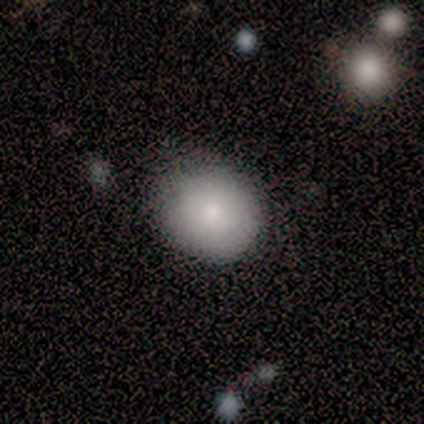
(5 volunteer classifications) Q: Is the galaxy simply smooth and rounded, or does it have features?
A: smooth — 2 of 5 (40%, tied with star or artifact).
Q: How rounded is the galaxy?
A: round — 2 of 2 (100%).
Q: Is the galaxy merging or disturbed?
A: none — 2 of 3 (67%).